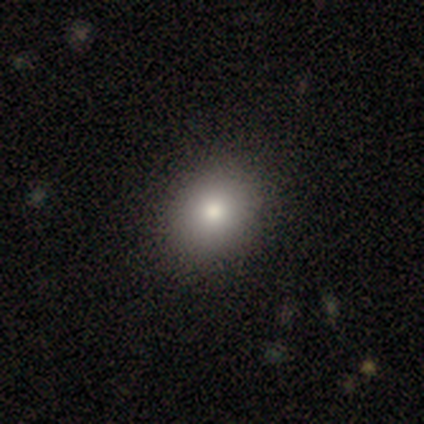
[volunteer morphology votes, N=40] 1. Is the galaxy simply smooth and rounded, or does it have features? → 90% smooth, 10% featured or disk, 0% star or artifact.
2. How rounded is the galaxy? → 61% round, 39% in between, 0% cigar-shaped.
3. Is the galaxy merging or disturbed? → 48% none, 5% minor disturbance, 2% merger, 0% major disturbance.